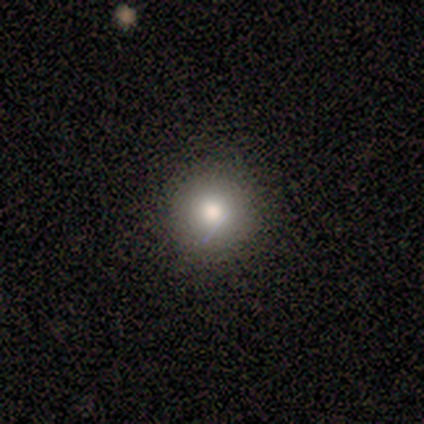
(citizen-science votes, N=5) Smooth or featured: smooth — 40% (tied with star or artifact — 40%)
How rounded: round — 100%
Merging: none — 100%